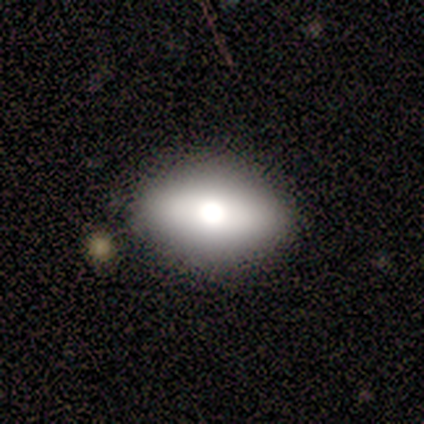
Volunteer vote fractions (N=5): Smooth or featured? 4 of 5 (80%) said smooth. How rounded? 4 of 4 (100%) said in between. Merging? 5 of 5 (100%) said none.